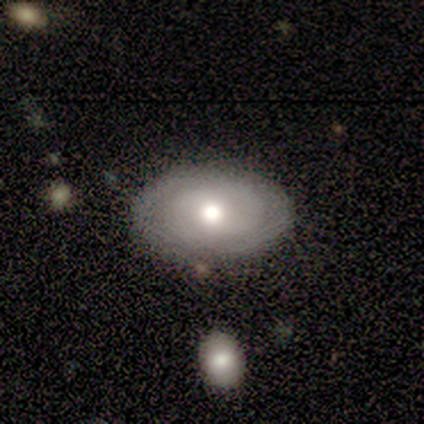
smooth-or-featured: smooth: 60% | featured or disk: 40% | star or artifact: 0%
  how-rounded: in between: 67% | round: 33% | cigar-shaped: 0%
  merging: none: 80% | merger: 20% | minor disturbance: 0% | major disturbance: 0%